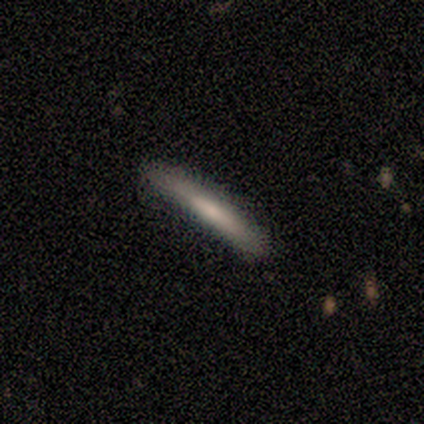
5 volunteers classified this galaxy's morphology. Smooth or featured? smooth (80%)
How rounded? cigar-shaped (100%)
Merging? none (80%)